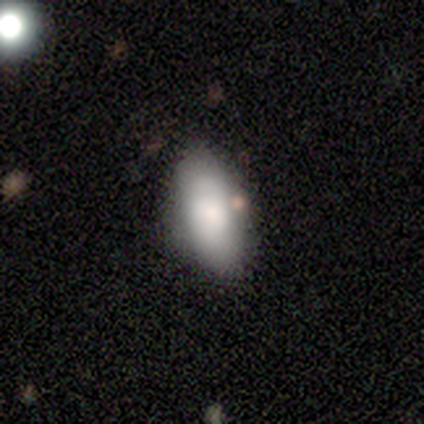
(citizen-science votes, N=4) smooth-or-featured: featured or disk: 75% | smooth: 25% | star or artifact: 0%
  disk-edge-on: yes: 67% | no: 33%
    edge-on-bulge: none: 100% | boxy: 0% | rounded: 0%
  merging: none: 100% | minor disturbance: 0% | major disturbance: 0% | merger: 0%